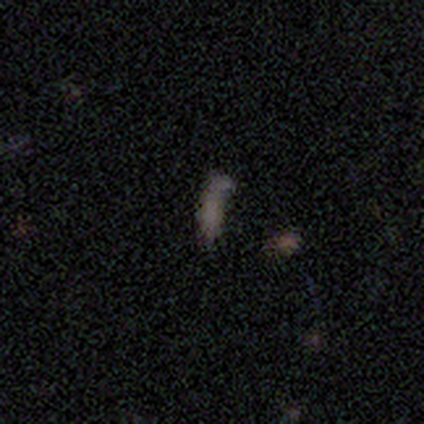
This is possibly a smooth galaxy (50%). How rounded: likely cigar-shaped (75%). Merging: marginally none (40%).